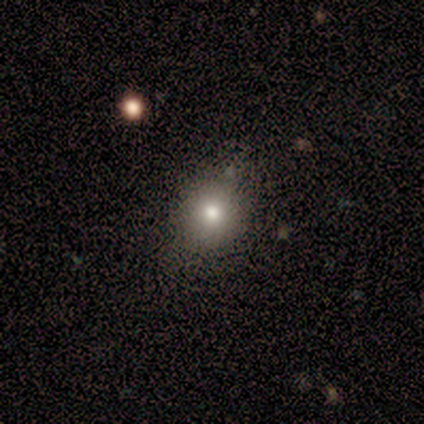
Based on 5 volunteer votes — smooth-or-featured: smooth: 60% | featured or disk: 20% | star or artifact: 20%
  how-rounded: round: 100% | in between: 0% | cigar-shaped: 0%
  merging: none: 50% (tied) | minor disturbance: 50% (tied) | major disturbance: 0% | merger: 0%